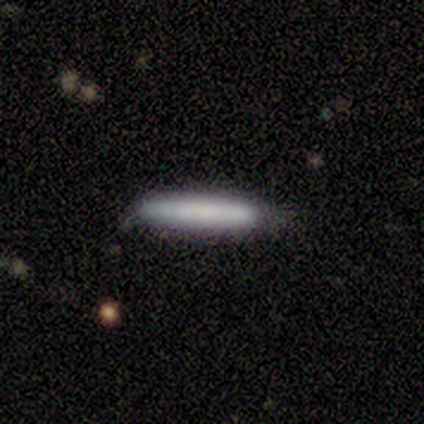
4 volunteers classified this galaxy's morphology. Overall: smooth (100%). How rounded: cigar-shaped (100%). Merging: none (75%).